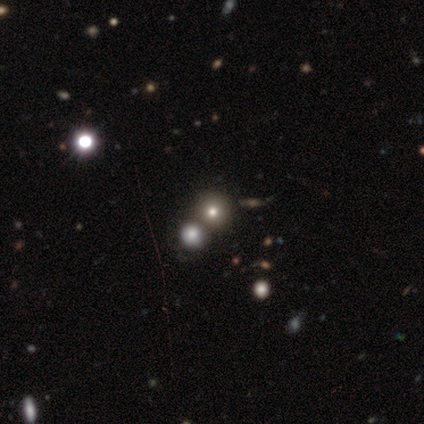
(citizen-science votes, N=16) A smooth galaxy with no disk features (50%) that is round (100%). Merging: none (50%).